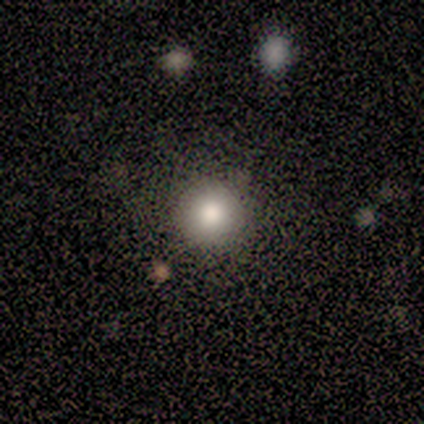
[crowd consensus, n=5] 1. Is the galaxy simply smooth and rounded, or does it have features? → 100% smooth, 0% featured or disk, 0% star or artifact.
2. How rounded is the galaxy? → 100% round, 0% in between, 0% cigar-shaped.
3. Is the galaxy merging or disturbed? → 100% none, 0% minor disturbance, 0% major disturbance, 0% merger.